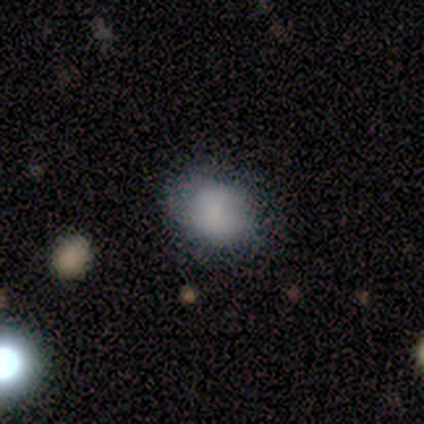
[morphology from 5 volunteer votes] Volunteers were most divided on "how rounded": round: 60%, in between: 40%, cigar-shaped: 0%. More confident: smooth or featured — smooth (100%); merging — none (60%).